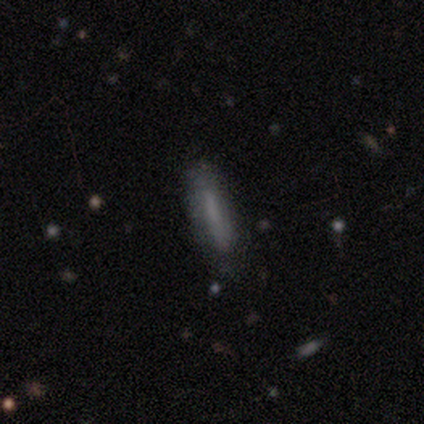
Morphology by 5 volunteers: Smooth or featured: smooth — 100%
How rounded: cigar-shaped — 80% (in between — 20%)
Merging: none — 60% (minor disturbance — 20%)